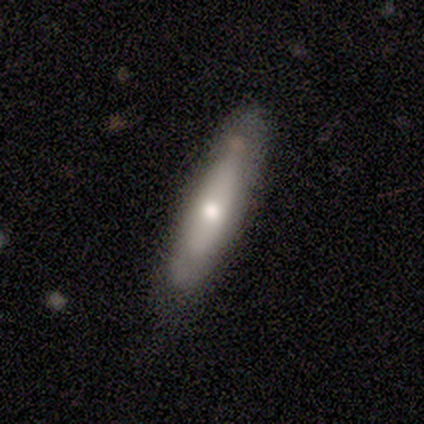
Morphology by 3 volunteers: Overall: featured or disk (67%; smooth 33%). Edge-on disk: yes (50%, tied with no). Edge-on bulge: none (100%). Merging: none (100%).